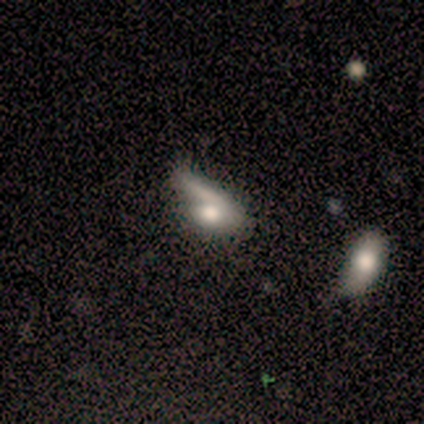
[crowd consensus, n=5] smooth-or-featured: smooth: 80% | featured or disk: 20% | star or artifact: 0%
  how-rounded: in between: 50% | round: 25% | cigar-shaped: 25%
  merging: merger: 60% | major disturbance: 40% | none: 0% | minor disturbance: 0%